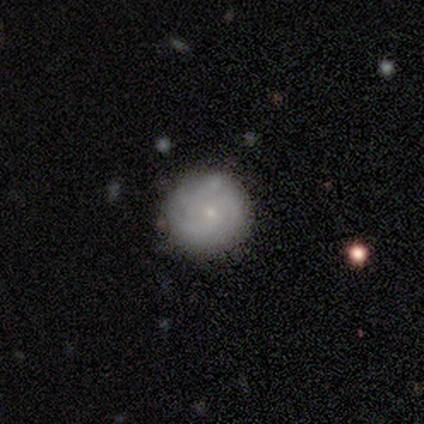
Smooth or featured: featured or disk — 75% (smooth — 25%)
Edge-on disk: no — 100%
Bar: no — 100%
Spiral arms: yes — 67% (no — 33%)
Spiral winding: tight — 50% (tied with medium — 50%)
Spiral arm count: 4 — 50% (tied with can't tell — 50%)
Bulge size: small — 100%
Merging: none — 100%